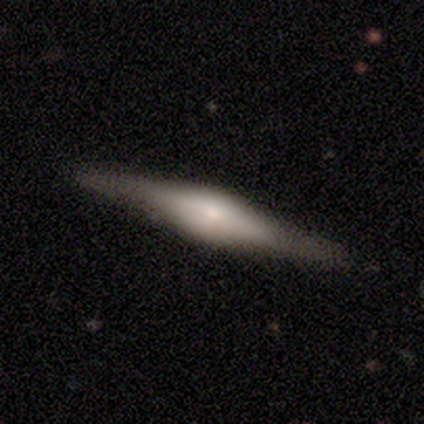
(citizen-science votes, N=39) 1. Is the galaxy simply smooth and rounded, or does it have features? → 64% featured or disk, 31% smooth, 5% star or artifact.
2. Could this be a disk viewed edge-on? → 100% yes, 0% no.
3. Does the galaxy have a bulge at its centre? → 72% rounded, 24% boxy, 4% none.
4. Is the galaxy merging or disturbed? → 92% none, 5% minor disturbance, 3% merger, 0% major disturbance.